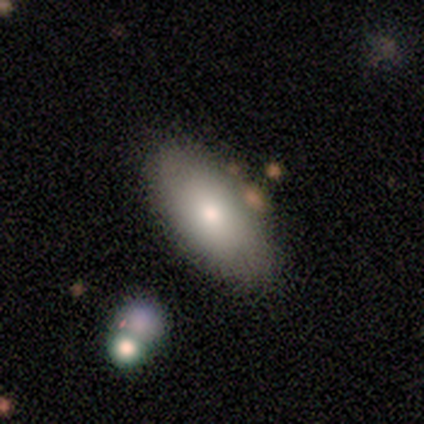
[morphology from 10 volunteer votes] This appears to be a smooth galaxy with no disk features (80%) that is in between round and cigar-shaped (100%). Merging: none (70%).